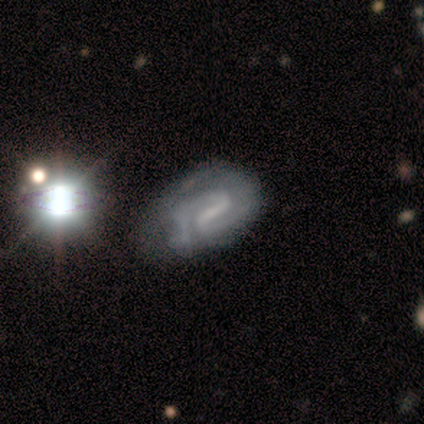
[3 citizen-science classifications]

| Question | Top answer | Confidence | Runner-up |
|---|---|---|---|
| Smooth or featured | featured or disk | 100% | — |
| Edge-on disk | no | 67% | yes (33%) |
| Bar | weak | 100% | — |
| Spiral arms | yes | 100% | — |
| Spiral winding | tight | 100% | — |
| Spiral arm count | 2 | 100% | — |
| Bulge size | moderate | 50% | tied: none (50%) |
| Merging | none | 67% | minor disturbance (33%) |